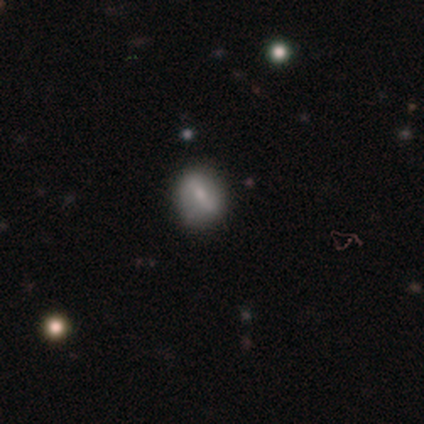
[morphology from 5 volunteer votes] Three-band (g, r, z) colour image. It shows a featured or disk galaxy (60%) with a weak bar (67%), no spiral arms (67%) and a large central bulge (33%, tied with moderate and small). Merging: none (75%).